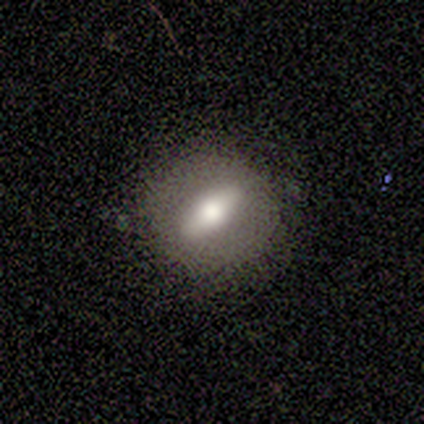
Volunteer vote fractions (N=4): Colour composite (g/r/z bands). It shows a smooth galaxy with no disk features (75%) that is round (67%). Merging: none (100%).